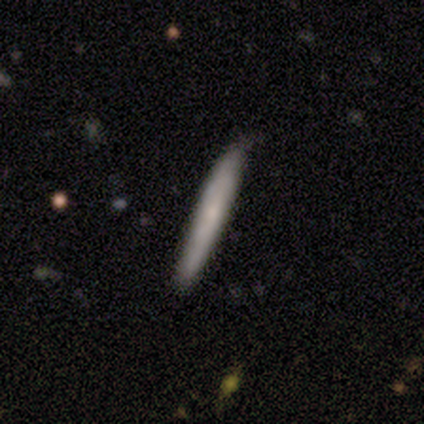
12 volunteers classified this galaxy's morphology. Overall: smooth (58%; featured or disk 33%). How rounded: cigar-shaped (100%). Merging: none (82%).